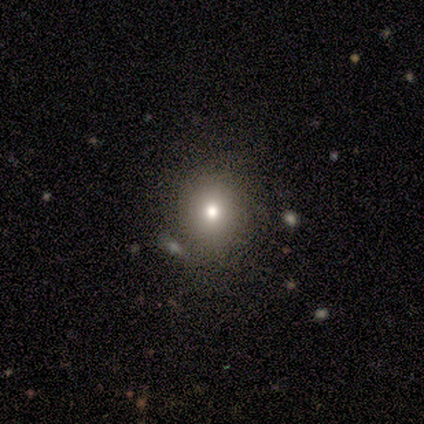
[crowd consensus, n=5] smooth 100%, featured or disk 0%, star or artifact 0%. Down the decision tree: how rounded — round (100%); merging — none (80%).